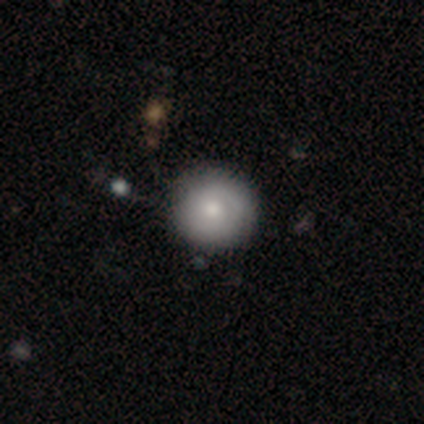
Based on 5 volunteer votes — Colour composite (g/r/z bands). It shows a smooth galaxy with no disk features (80%) that is round (100%). Merging: none (80%).